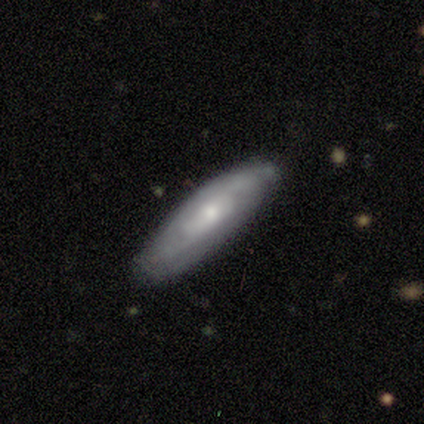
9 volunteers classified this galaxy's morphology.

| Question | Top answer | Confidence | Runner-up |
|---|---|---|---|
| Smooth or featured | featured or disk | 67% | smooth (33%) |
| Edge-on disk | no | 100% | — |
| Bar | no | 67% | weak (33%) |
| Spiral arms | yes | 100% | — |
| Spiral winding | tight | 83% | medium (17%) |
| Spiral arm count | can't tell | 50% | 2 (33%) |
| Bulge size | small | 67% | moderate (33%) |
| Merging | none | 78% | minor disturbance (22%) |